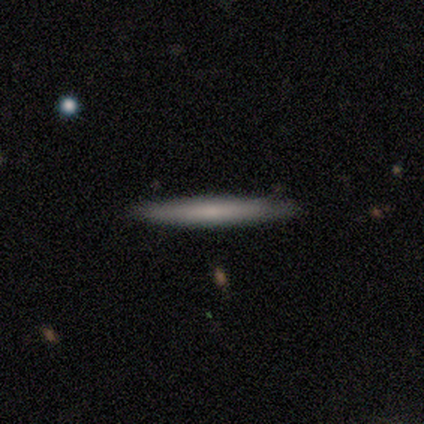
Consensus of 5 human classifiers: Morphology: type=smooth (100%); roundness=cigar-shaped (100%); merging=none (100%).